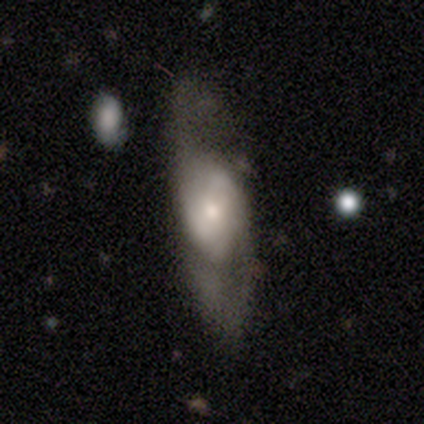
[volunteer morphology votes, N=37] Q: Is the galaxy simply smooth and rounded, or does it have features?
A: featured or disk — 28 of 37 (76%).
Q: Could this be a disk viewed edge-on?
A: no — 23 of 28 (82%).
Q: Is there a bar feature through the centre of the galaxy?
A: no — 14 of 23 (61%).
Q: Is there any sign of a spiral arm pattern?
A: yes — 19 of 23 (83%).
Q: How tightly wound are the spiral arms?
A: medium — 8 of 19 (42%).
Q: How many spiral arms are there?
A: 2 — 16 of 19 (84%).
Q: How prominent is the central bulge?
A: small — 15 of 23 (65%).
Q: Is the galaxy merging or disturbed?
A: none — 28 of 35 (80%).